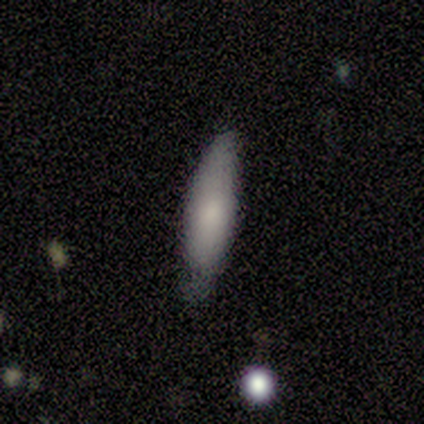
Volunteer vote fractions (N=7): Volunteers were most divided on "how rounded": cigar-shaped: 67%, in between: 33%, round: 0%. More confident: smooth or featured — smooth (86%); merging — none (86%).